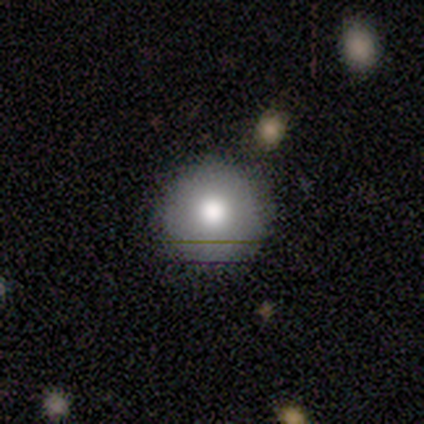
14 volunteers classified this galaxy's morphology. This appears to be a smooth galaxy with no disk features (86%) that is round (100%). Merging: none (92%).